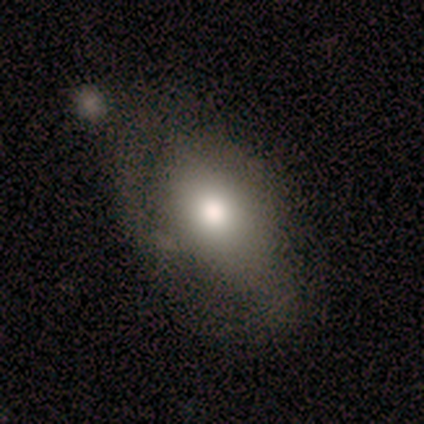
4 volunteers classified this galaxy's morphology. Volunteers were most divided on "how rounded": in between: 67%, round: 33%, cigar-shaped: 0%. More confident: smooth or featured — smooth (75%); merging — none (75%).